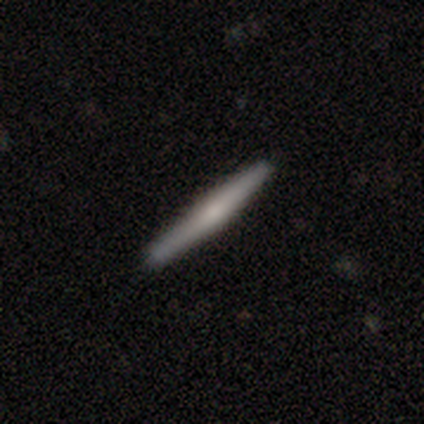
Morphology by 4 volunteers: This appears to be a featured or disk galaxy (100%) viewed edge-on (100%) with a rounded central bulge (100%). Merging: none (75%).